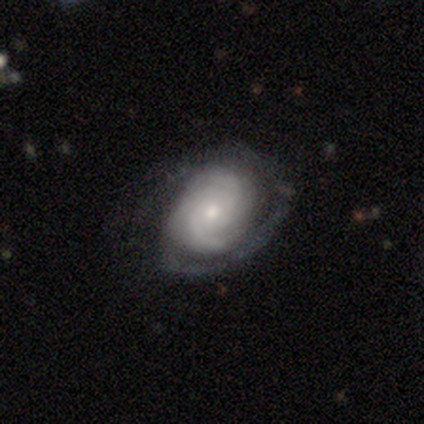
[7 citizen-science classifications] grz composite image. It shows a featured or disk galaxy (86%) with no bar (83%), 2 (33%, tied with can't tell) tight (50%, tied with medium) spiral arms (100%) and a moderate central bulge (50%, tied with small). Merging: none (50%).